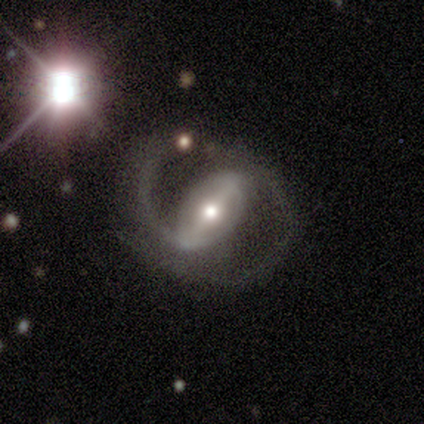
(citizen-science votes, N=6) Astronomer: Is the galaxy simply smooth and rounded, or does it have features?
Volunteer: featured or disk — 100%.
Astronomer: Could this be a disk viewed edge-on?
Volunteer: no — 100%.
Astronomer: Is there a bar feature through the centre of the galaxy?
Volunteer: strong — 67%.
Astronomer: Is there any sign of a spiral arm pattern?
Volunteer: yes — 100%.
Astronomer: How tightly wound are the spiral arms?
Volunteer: medium — 83%.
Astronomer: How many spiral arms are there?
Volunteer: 2 — 83%.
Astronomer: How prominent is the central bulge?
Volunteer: small — 50% (runner-up: moderate, 33%).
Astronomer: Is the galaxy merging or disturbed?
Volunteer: none — 50%, tied with minor disturbance at 50%.